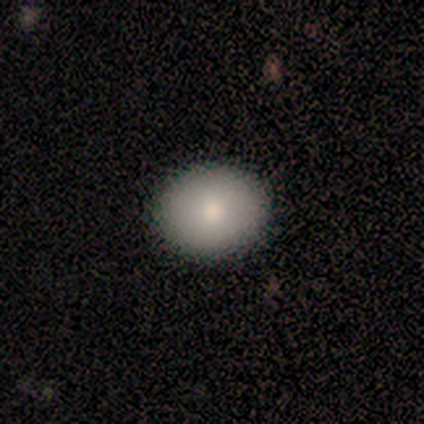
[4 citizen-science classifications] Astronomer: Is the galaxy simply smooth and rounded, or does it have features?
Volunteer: smooth — 75%.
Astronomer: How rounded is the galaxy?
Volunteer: round — 67%.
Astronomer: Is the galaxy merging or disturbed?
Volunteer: none — 100%.